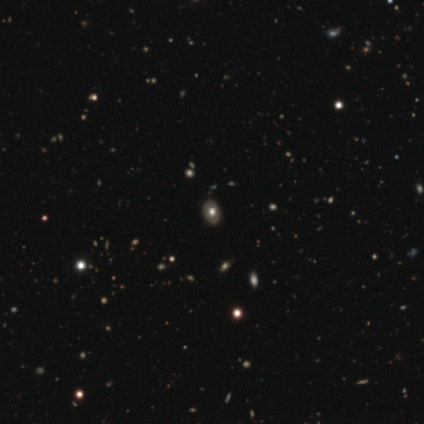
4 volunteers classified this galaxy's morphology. A smooth galaxy with no disk features (75%) that is in between round and cigar-shaped (100%). Merging: none (100%).